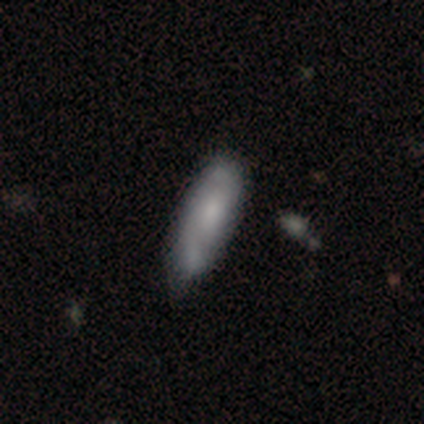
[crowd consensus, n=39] smooth-or-featured: smooth: 51% | featured or disk: 41% | star or artifact: 8%
  how-rounded: in between: 70% | cigar-shaped: 25% | round: 5%
  merging: none: 61% | minor disturbance: 31% | merger: 8% | major disturbance: 0%